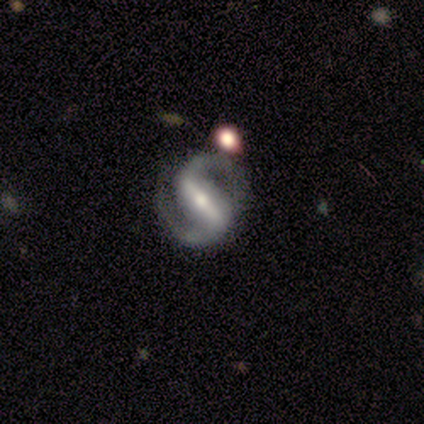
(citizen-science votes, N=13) This appears to be a featured or disk galaxy (100%) with a strong bar (82%), 2 (100%) medium (45%) spiral arms (100%) and a moderate central bulge (73%). Merging: none (77%).